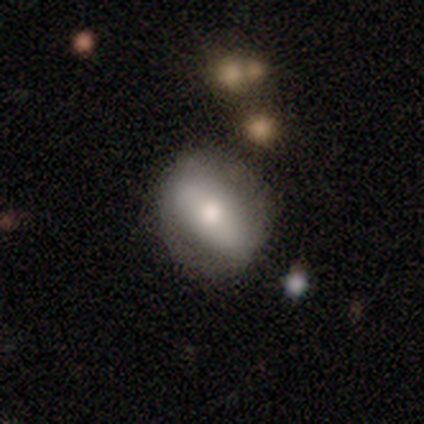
Smooth or featured? featured or disk (60%)
Edge-on disk? no (67%)
Bar? strong (50%, tied with no)
Spiral arms? yes (50%, tied with no)
Spiral winding? loose (100%)
Spiral arm count? can't tell (100%)
Bulge size? moderate (50%, tied with small)
Merging? none (60%)